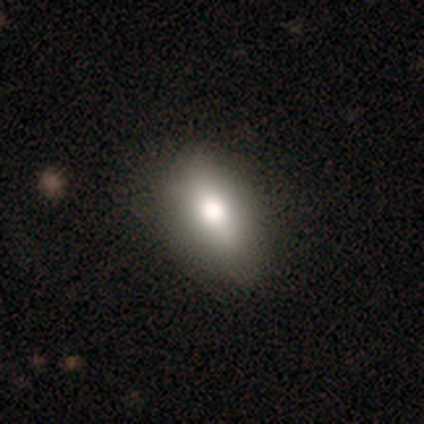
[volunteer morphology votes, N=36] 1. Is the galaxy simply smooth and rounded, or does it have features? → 75% smooth, 17% featured or disk, 8% star or artifact.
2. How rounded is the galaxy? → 89% in between, 7% cigar-shaped, 4% round.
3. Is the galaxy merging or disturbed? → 76% none, 15% minor disturbance, 6% merger, 3% major disturbance.